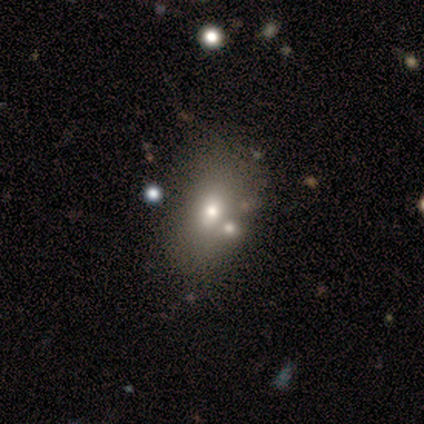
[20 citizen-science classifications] Overall: smooth (55%; featured or disk 45%). How rounded: in between (100%). Merging: none (65%).